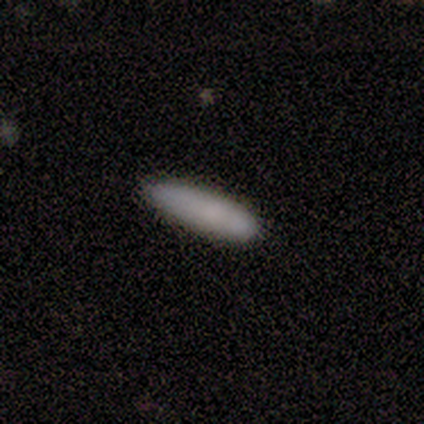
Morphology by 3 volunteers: Smooth or featured?
  - smooth: 100% *
  - featured or disk: 0%
  - star or artifact: 0%
How rounded?
  - cigar-shaped: 67% *
  - in between: 33%
  - round: 0%
Merging?
  - none: 100% *
  - minor disturbance: 0%
  - major disturbance: 0%
  - merger: 0%